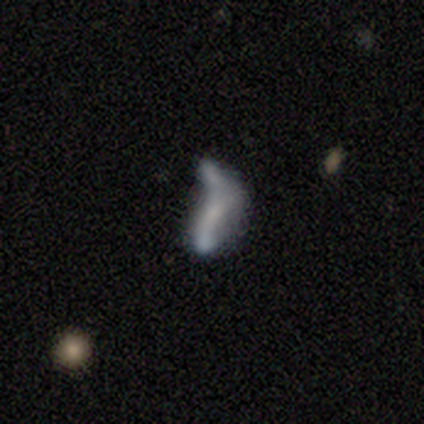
Morphology: type=smooth (40%, tied with featured or disk); roundness=in between (100%); merging=major disturbance (50%, tied with merger).